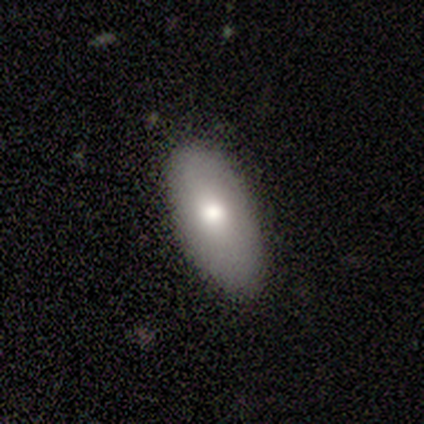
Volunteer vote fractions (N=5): Overall: smooth (60%; featured or disk 20%). How rounded: in between (100%). Merging: none (75%).